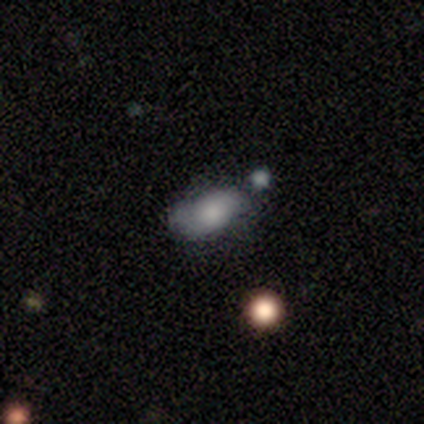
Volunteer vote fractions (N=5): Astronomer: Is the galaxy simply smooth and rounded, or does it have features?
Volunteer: smooth — 60% (runner-up: featured or disk, 40%).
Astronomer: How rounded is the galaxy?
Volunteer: in between — 100%.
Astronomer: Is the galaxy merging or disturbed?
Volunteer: none — 60% (runner-up: minor disturbance, 40%).